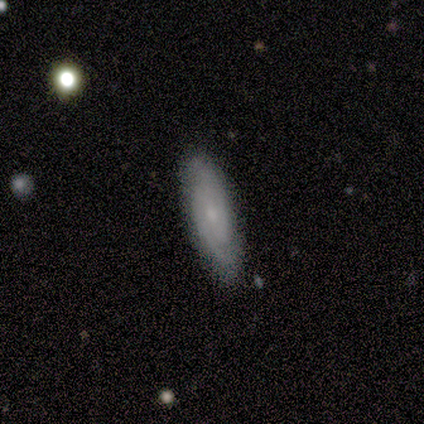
featured or disk 80%, smooth 20%, star or artifact 0%. Down the decision tree: edge-on disk — no (100%); bar — no (75%); spiral arms — yes (100%); spiral arm count — 2 (75%); spiral winding — tight (100%); bulge size — small (100%); merging — none (80%).